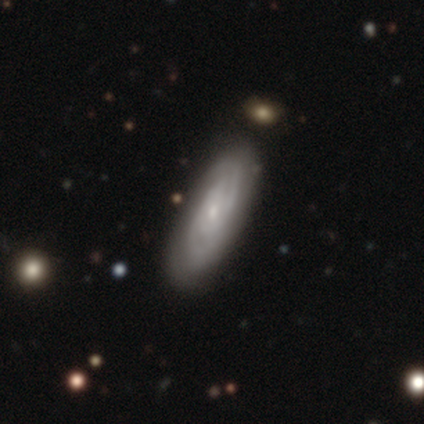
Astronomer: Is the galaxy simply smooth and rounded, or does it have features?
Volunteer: featured or disk — 87%.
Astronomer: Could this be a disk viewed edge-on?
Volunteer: no — 88%.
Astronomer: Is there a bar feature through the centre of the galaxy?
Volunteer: no — 70%.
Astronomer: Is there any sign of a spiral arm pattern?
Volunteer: yes — 97%.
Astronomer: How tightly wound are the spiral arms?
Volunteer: tight — 66%.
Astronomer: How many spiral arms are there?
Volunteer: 2 — 48% (runner-up: can't tell, 41%).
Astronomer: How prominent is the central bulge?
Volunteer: small — 80%.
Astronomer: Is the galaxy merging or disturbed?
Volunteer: none — 87%.